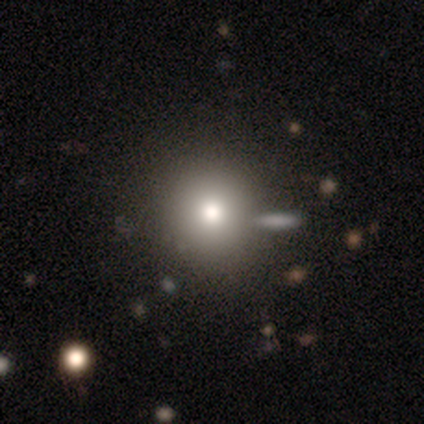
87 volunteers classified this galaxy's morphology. type=smooth (79%); roundness=round (91%); merging=none (71%).